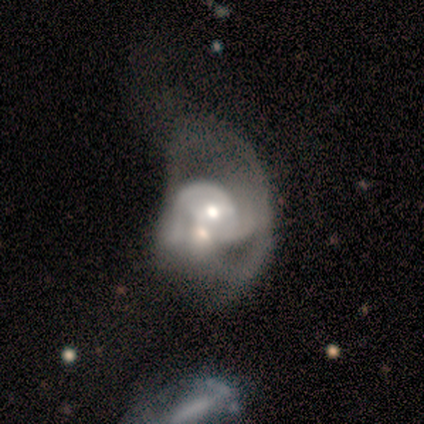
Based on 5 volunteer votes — Smooth or featured: featured or disk — 100%
Edge-on disk: no — 80% (yes — 20%)
Bar: no — 100%
Spiral arms: yes — 100%
Spiral winding: tight — 50% (tied with loose — 50%)
Spiral arm count: 1 — 50% (tied with can't tell — 50%)
Bulge size: moderate — 50% (tied with small — 50%)
Merging: merger — 60% (major disturbance — 40%)